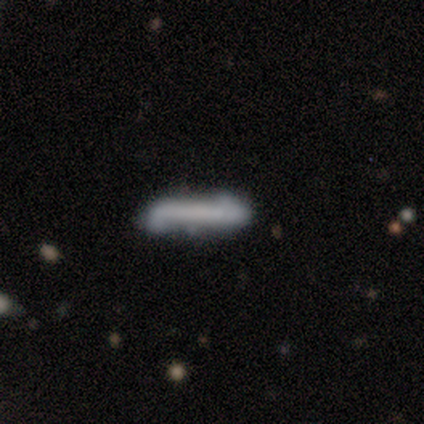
Morphology: type=smooth (80%); roundness=cigar-shaped (100%); merging=none (80%).